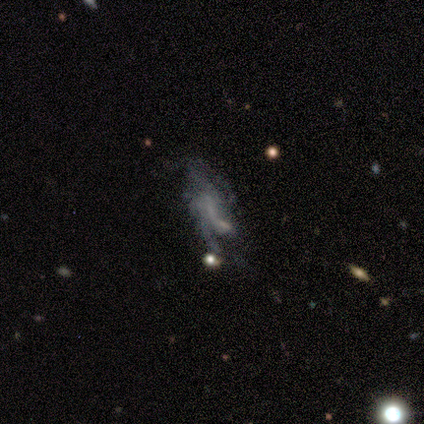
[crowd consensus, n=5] This appears to be a featured or disk galaxy (60%) with no bar (67%), 1 (50%, tied with 2) loose (100%) spiral arms (67%) and no central bulge (100%). Merging: none (40%, tied with major disturbance).